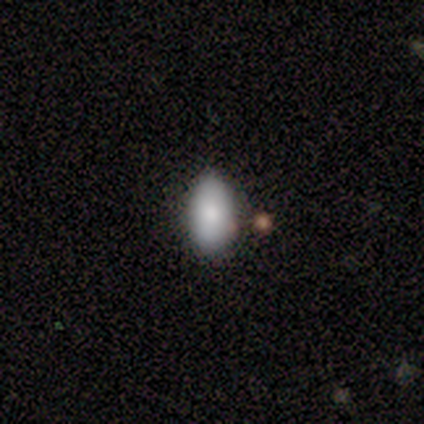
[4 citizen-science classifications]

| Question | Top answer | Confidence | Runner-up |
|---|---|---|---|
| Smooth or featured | smooth | 100% | — |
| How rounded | in between | 100% | — |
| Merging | none | 75% | minor disturbance (25%) |